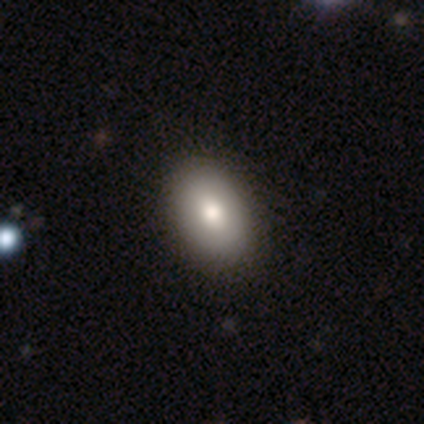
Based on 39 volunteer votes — A smooth galaxy with no disk features (79%) that is in between round and cigar-shaped (90%).

Vote fractions:
- Smooth or featured? smooth: 79% / featured or disk: 10% / star or artifact: 10%
- How rounded? in between: 90% / round: 10% / cigar-shaped: 0%
- Merging? none: 71% / minor disturbance: 6% / merger: 6% / major disturbance: 0%